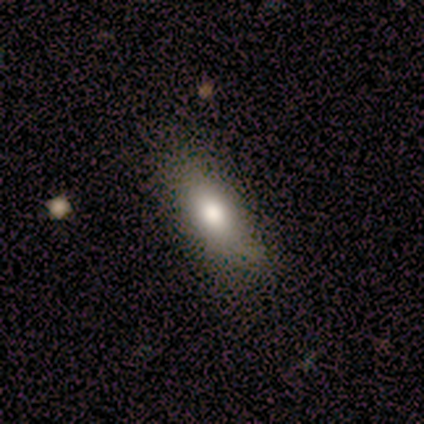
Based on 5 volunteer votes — Smooth or featured: smooth — 60% (featured or disk — 20%)
How rounded: in between — 100%
Merging: none — 75% (minor disturbance — 25%)